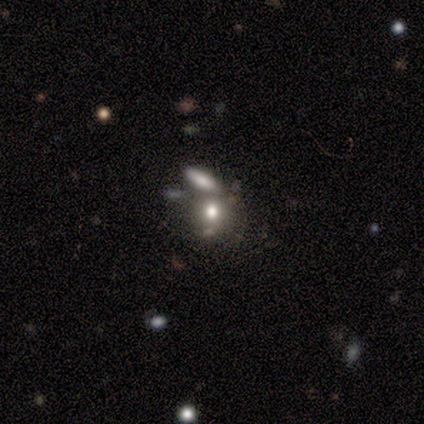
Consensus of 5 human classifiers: Smooth or featured?
  - smooth: 80% *
  - star or artifact: 20%
  - featured or disk: 0%
How rounded?
  - round: 75% *
  - in between: 25%
  - cigar-shaped: 0%
Merging?
  - none: 50% *
  - minor disturbance: 25%
  - merger: 25%
  - major disturbance: 0%